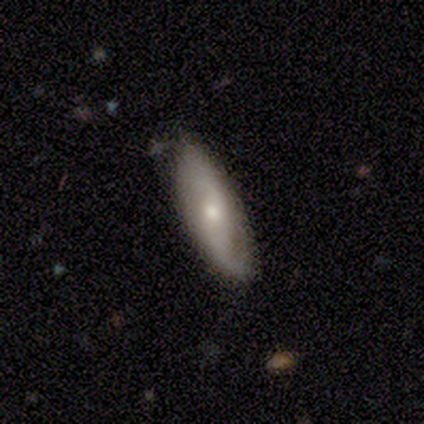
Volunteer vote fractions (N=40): Smooth or featured? 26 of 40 (65%) said featured or disk. Edge-on disk? 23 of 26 (88%) said no. Bar? 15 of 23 (65%) said no. Spiral arms? 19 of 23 (83%) said yes. Spiral winding? 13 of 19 (68%) said loose. Spiral arm count? 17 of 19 (89%) said 2. Bulge size? 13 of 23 (57%) said small. Merging? 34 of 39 (87%) said none.